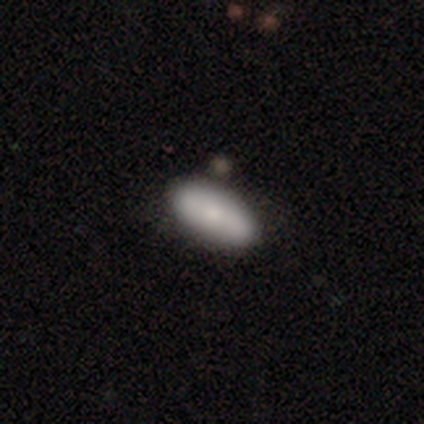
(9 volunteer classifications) Smooth or featured: featured or disk — 67% (smooth — 33%)
Edge-on disk: no — 67% (yes — 33%)
Bar: no — 100%
Spiral arms: no — 75% (yes — 25%)
Bulge size: moderate — 50% (tied with small — 50%)
Merging: none — 78% (minor disturbance — 22%)